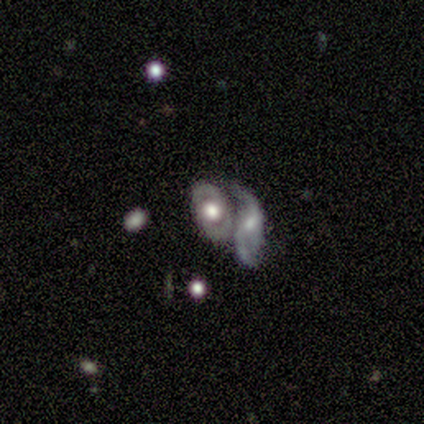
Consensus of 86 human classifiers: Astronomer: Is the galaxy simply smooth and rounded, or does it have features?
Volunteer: featured or disk — 73%.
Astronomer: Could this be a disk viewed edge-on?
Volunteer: no — 98%.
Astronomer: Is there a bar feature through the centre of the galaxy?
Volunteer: no — 68%.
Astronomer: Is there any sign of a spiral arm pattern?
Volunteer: yes — 56% (runner-up: no, 44%).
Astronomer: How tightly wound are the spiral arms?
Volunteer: tight — 37%, tied with loose at 37%.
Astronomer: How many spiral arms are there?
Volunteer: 2 — 83%.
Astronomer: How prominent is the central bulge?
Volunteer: large — 42% (runner-up: moderate, 37%).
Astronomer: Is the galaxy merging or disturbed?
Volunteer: merger — 57%.